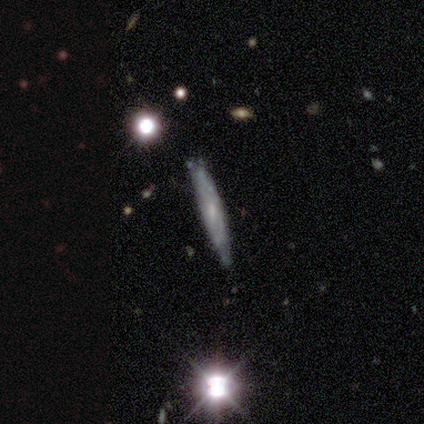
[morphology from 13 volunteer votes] This is possibly a featured or disk galaxy (54%). It is likely viewed edge-on (71%). Edge-on bulge: likely none (60%). Merging: likely none (77%).